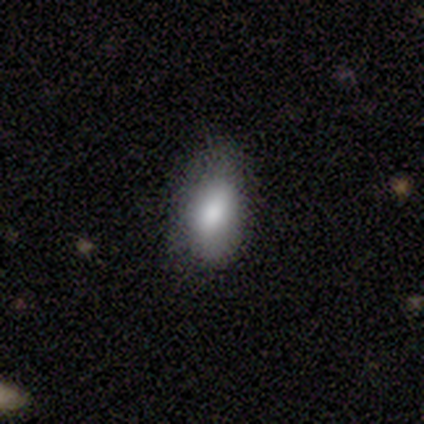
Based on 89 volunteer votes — This is clearly a smooth galaxy (81%). How rounded: clearly in between (92%). Merging: likely none (65%).